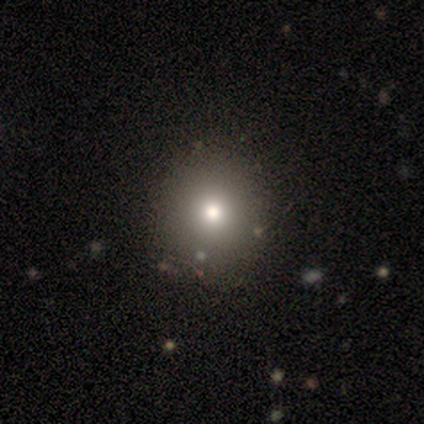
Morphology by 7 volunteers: Smooth or featured?
  - smooth: 71% *
  - star or artifact: 29%
  - featured or disk: 0%
How rounded?
  - round: 60% *
  - in between: 40%
  - cigar-shaped: 0%
Merging?
  - none: 80% *
  - minor disturbance: 20%
  - major disturbance: 0%
  - merger: 0%